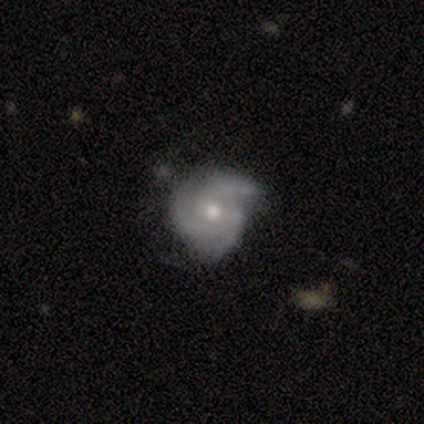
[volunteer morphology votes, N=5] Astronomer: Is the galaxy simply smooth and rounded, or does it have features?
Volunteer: featured or disk — 100%.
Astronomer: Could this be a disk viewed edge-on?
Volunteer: no — 100%.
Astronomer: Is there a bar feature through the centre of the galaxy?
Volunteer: no — 100%.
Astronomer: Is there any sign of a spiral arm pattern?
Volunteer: yes — 100%.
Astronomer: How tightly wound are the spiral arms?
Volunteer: medium — 60% (runner-up: tight, 40%).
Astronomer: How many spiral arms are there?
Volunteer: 3 — 60%.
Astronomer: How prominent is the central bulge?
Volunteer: moderate — 60%.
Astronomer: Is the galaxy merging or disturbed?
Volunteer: none — 80%.